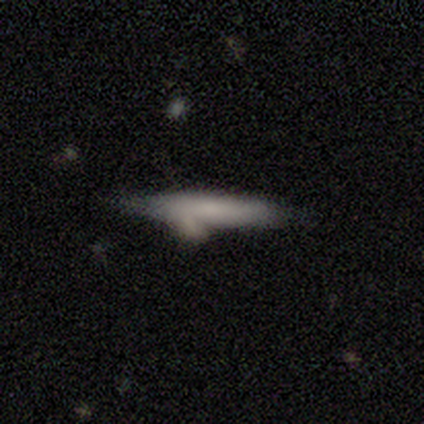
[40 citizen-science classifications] Smooth or featured?
  - smooth: 52% *
  - featured or disk: 40%
  - star or artifact: 8%
How rounded?
  - cigar-shaped: 81% *
  - in between: 19%
  - round: 0%
Merging?
  - none: 41% *
  - minor disturbance: 35%
  - merger: 19%
  - major disturbance: 5%